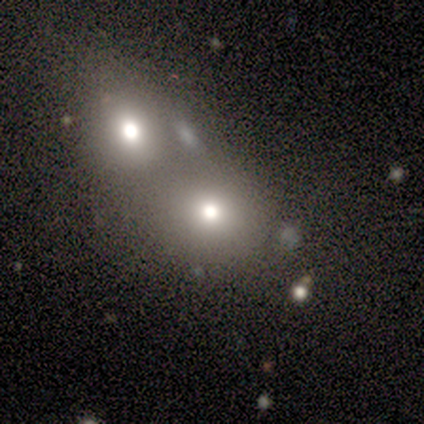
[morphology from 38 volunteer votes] This appears to be a smooth galaxy with no disk features (76%) that is round (62%). Merging: merger (77%).